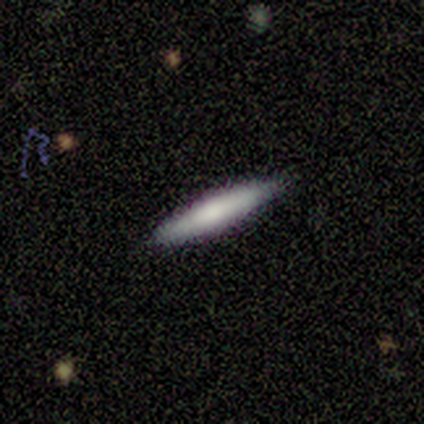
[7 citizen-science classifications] Smooth or featured? 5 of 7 (71%) said smooth. How rounded? 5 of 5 (100%) said cigar-shaped. Merging? 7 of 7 (100%) said none.